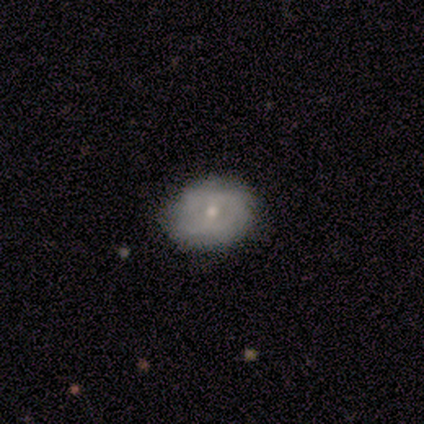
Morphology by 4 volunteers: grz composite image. It shows a smooth galaxy with no disk features (50%) that is in between round and cigar-shaped (100%). Merging: minor disturbance (67%).